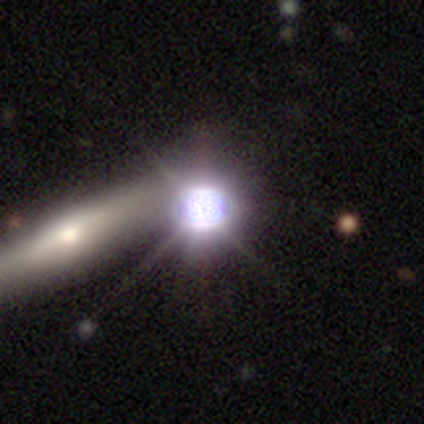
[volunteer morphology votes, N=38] A star or artifact, not a galaxy (82%).

Vote fractions:
- Smooth or featured? star or artifact: 82% / featured or disk: 13% / smooth: 5%